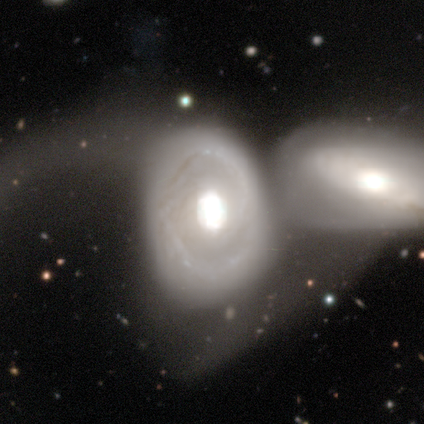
Smooth or featured: featured or disk — 67% (smooth — 33%)
Edge-on disk: no — 100%
Bar: strong — 100%
Spiral arms: yes — 100%
Spiral winding: tight — 100%
Spiral arm count: can't tell — 100%
Bulge size: dominant — 50% (tied with large — 50%)
Merging: merger — 67% (none — 33%)